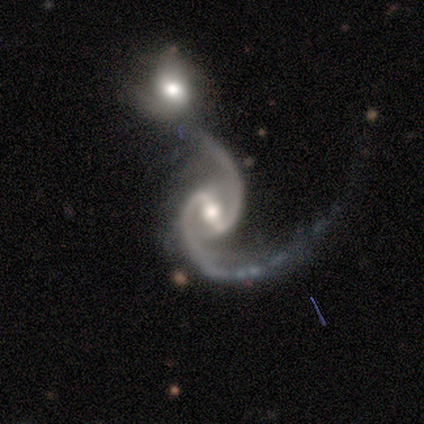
smooth_or_featured: featured or disk (p=1.00)
disk_edge_on: no (p=0.80) [alt: yes p=0.20]
bar: strong (p=0.75) [alt: weak p=0.25]
has_spiral_arms: yes (p=1.00)
spiral_winding: medium (p=0.50) [tied with: loose p=0.50]
spiral_arm_count: 2 (p=1.00)
bulge_size: moderate (p=0.75) [alt: dominant p=0.25]
merging: minor disturbance (p=0.40) [tied with: merger p=0.40]